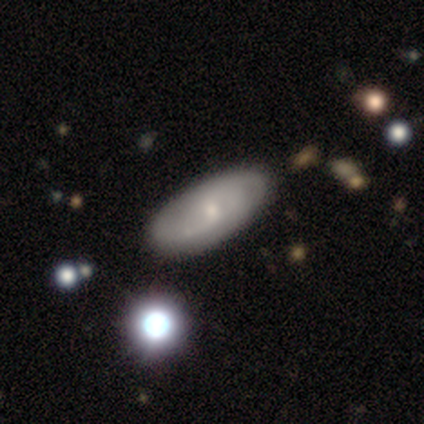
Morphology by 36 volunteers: Smooth or featured? featured or disk (53%)
Edge-on disk? no (89%)
Bar? no (71%)
Spiral arms? yes (65%)
Spiral winding? medium (36%, tied with loose)
Spiral arm count? 2 (64%)
Bulge size? small (65%)
Merging? none (83%)